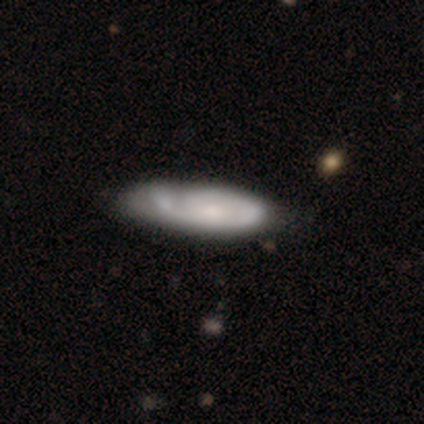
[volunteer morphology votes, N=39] This appears to be a featured or disk galaxy (64%) with no bar (71%), tight (56%) spiral arms (75%) and a small central bulge (46%). Merging: none (28%).